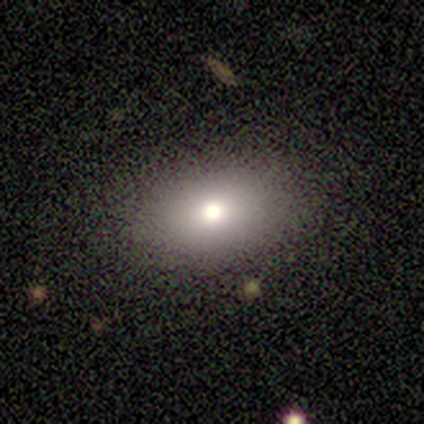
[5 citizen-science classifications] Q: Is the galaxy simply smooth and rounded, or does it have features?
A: smooth — 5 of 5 (100%).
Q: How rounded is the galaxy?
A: in between — 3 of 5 (60%).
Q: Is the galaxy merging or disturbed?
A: none — 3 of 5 (60%).